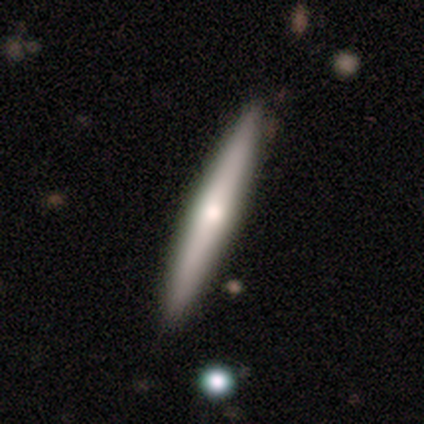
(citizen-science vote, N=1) This is clearly a smooth galaxy (100%). How rounded: clearly cigar-shaped (100%). Merging: clearly none (100%).